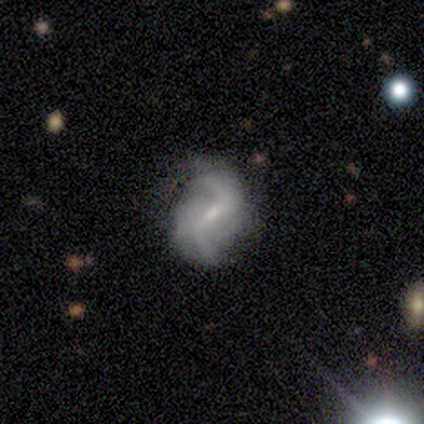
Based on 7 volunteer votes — Smooth or featured? 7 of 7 (100%) said featured or disk. Edge-on disk? 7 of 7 (100%) said no. Bar? 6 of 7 (86%) said weak. Spiral arms? 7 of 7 (100%) said yes. Spiral winding? 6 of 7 (86%) said loose. Spiral arm count? 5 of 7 (71%) said 2. Bulge size? 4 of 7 (57%) said moderate. Merging? 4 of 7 (57%) said minor disturbance.